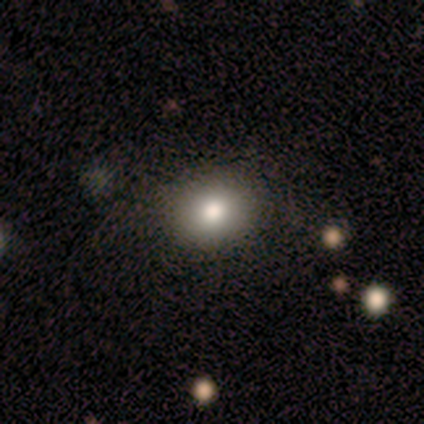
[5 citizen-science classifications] Overall: star or artifact (80%).